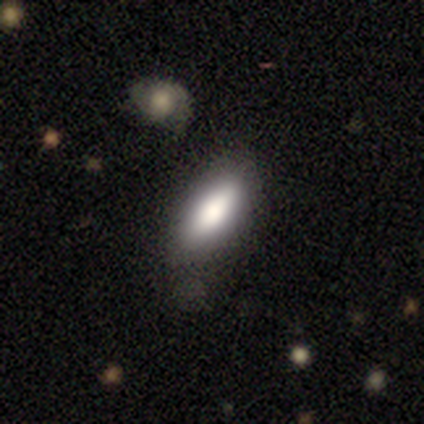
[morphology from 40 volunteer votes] This is likely a smooth galaxy (75%). How rounded: likely in between (70%). Merging: likely none (76%).